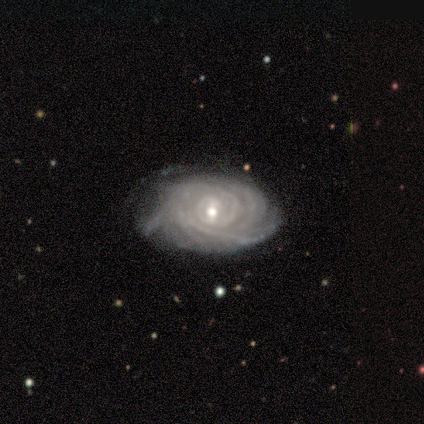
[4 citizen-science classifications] Morphology: type=featured or disk (100%); edge-on=no (100%); bar=strong (50%, tied with no); spiral arms=yes (100%); winding=tight (75%); arm count=more than 4 (75%); bulge=large (50%, tied with moderate); merging=minor disturbance (50%).